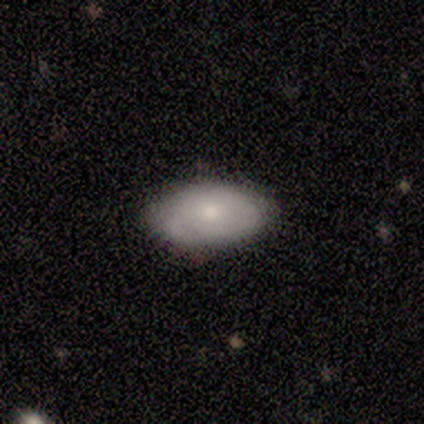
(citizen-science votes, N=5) Volunteers were most divided on "merging": none: 60%, minor disturbance: 40%, major disturbance: 0%, merger: 0%. More confident: smooth or featured — smooth (80%); how rounded — in between (75%).